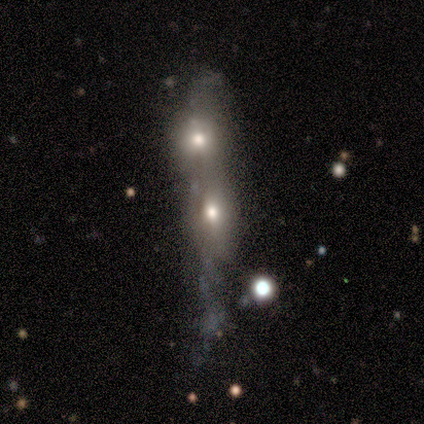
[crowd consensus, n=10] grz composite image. It shows a smooth galaxy with no disk features (70%) that is in between round and cigar-shaped (43%, tied with cigar-shaped). Merging: merger (90%).